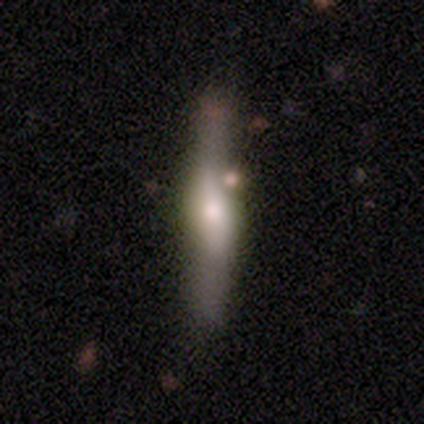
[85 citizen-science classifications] A featured or disk galaxy (54%) viewed edge-on (85%) with a rounded central bulge (79%). Merging: none (66%).